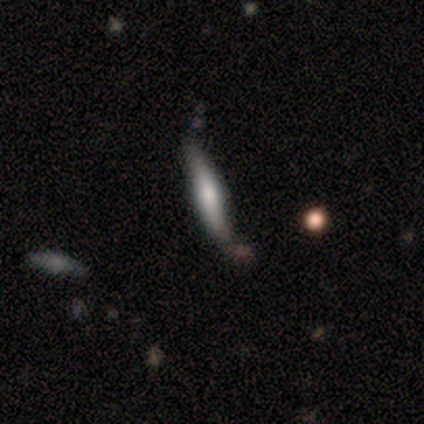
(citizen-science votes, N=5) Smooth or featured? smooth (60%)
How rounded? cigar-shaped (100%)
Merging? none (80%)